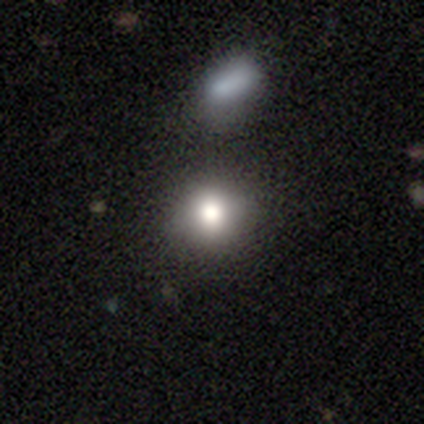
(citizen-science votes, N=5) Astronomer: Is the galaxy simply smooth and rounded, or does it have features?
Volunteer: smooth — 80%.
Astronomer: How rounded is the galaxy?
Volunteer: round — 75%.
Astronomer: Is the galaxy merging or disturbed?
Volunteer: none — 75%.